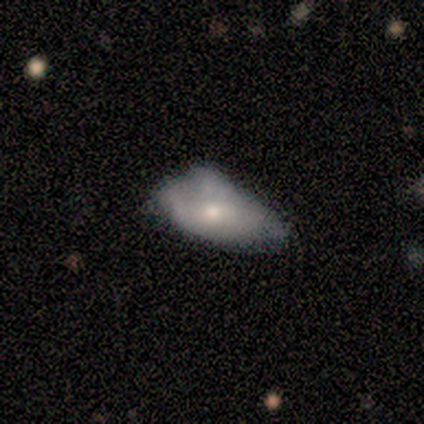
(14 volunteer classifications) This is likely a smooth galaxy (64%). How rounded: clearly in between (100%). Merging: marginally minor disturbance (43%).